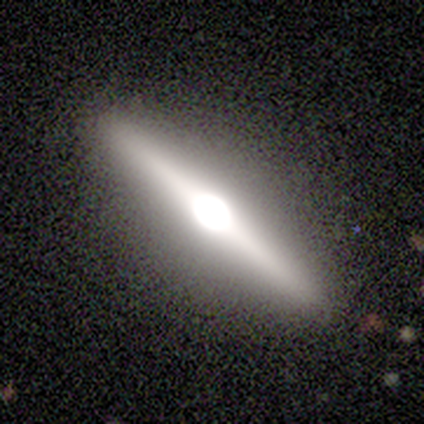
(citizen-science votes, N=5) Overall: featured or disk (80%). Edge-on disk: yes (100%). Edge-on bulge: rounded (100%). Merging: none (100%).